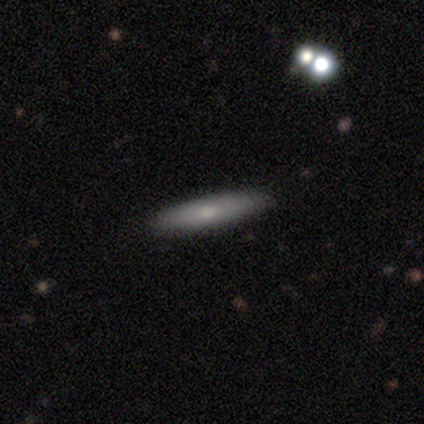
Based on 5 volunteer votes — Smooth or featured? smooth (100%)
How rounded? cigar-shaped (100%)
Merging? none (100%)